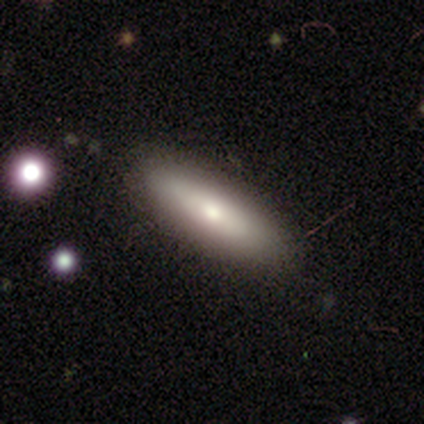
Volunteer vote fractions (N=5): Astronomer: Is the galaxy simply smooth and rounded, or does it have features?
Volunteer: smooth — 60% (runner-up: featured or disk, 40%).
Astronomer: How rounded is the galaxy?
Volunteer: in between — 100%.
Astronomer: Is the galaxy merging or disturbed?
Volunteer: none — 100%.